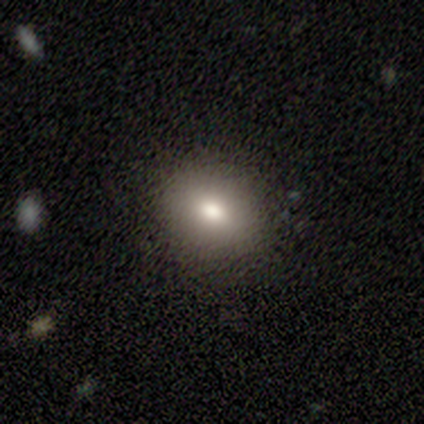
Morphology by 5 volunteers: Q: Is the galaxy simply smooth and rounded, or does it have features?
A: smooth — 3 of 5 (60%).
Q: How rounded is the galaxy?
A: in between — 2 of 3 (67%).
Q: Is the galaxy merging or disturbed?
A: none — 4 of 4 (100%).